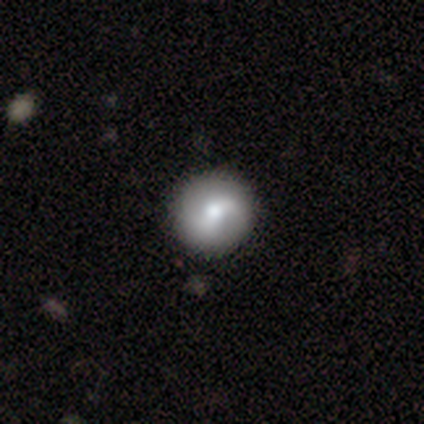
Q: Smooth or featured?
A: featured or disk (60%); runner-up: smooth (40%)
Q: Edge-on disk?
A: no (100%)
Q: Bar?
A: no (67%); runner-up: weak (33%)
Q: Spiral arms?
A: yes (100%)
Q: Spiral winding?
A: loose (67%); runner-up: tight (33%)
Q: Spiral arm count?
A: 2 (100%)
Q: Bulge size?
A: small (67%); runner-up: moderate (33%)
Q: Merging?
A: none (100%)